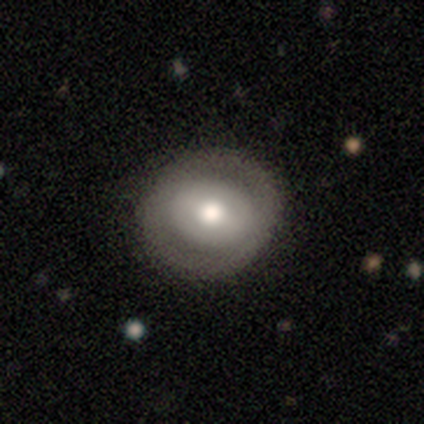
smooth 47% (tied), featured or disk 47% (tied), star or artifact 5%. Down the decision tree: how rounded — round (83%); merging — none (86%).